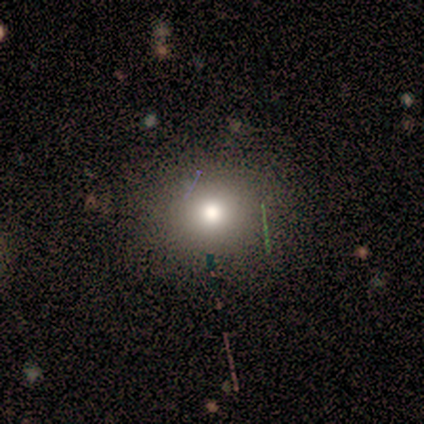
Morphology: type=smooth (86%); roundness=round (100%); merging=none (67%).